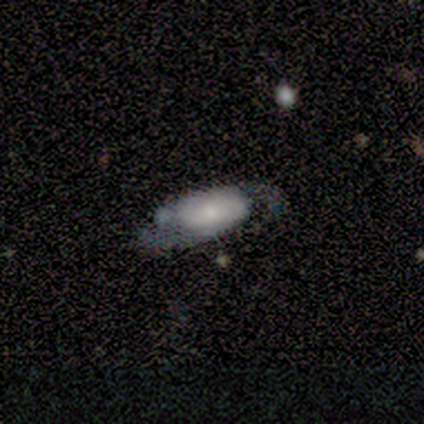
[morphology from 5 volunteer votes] Smooth or featured: featured or disk — 80% (smooth — 20%)
Edge-on disk: no — 100%
Bar: no — 100%
Spiral arms: yes — 75% (no — 25%)
Spiral winding: medium — 100%
Spiral arm count: 2 — 100%
Bulge size: small — 50% (large — 25%)
Merging: minor disturbance — 60% (none — 20%)